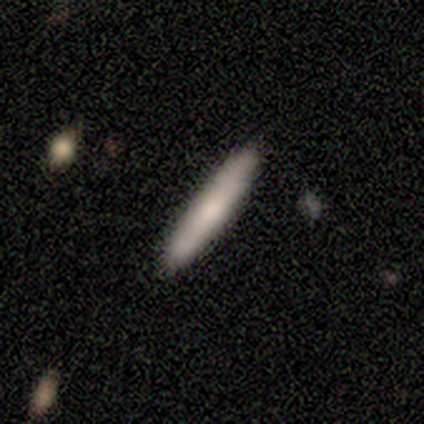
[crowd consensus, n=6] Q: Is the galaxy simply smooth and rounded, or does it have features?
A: smooth — 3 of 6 (50%, tied with featured or disk).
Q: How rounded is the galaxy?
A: cigar-shaped — 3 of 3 (100%).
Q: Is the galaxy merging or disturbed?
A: none — 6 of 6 (100%).